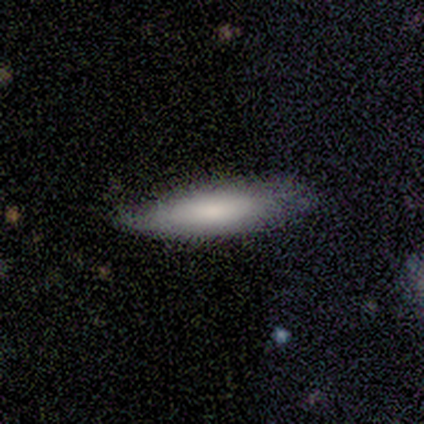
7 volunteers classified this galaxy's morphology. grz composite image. It shows a smooth galaxy with no disk features (100%) that is cigar-shaped (57%). Merging: none (57%).